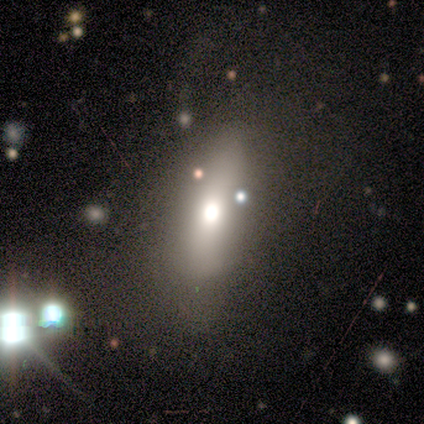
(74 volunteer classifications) smooth_or_featured: smooth (p=0.66) [alt: featured or disk p=0.20]
how_rounded: in between (p=0.53) [alt: cigar-shaped p=0.47]
merging: none (p=0.31) [alt: minor disturbance p=0.17]